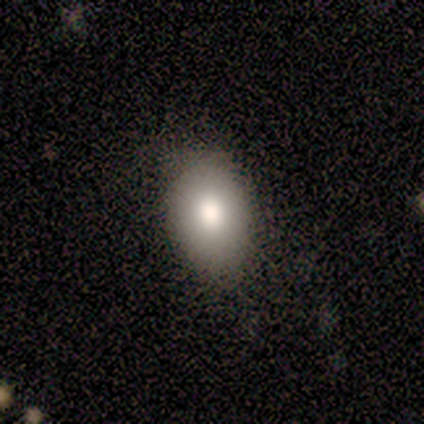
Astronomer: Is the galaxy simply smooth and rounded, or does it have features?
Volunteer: smooth — 100%.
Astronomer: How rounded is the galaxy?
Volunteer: in between — 80%.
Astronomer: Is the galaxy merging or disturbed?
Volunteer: none — 100%.